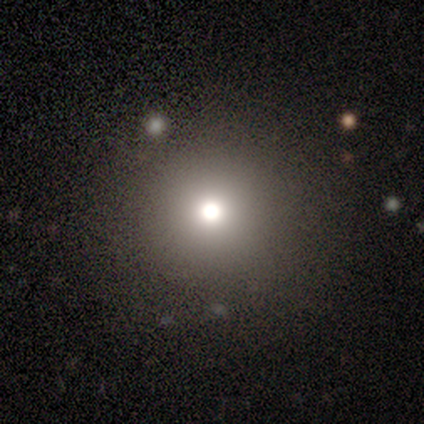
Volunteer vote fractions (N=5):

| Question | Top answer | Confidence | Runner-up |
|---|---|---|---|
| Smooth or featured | smooth | 80% | star or artifact (20%) |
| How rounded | round | 100% | — |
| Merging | none | 75% | minor disturbance (25%) |